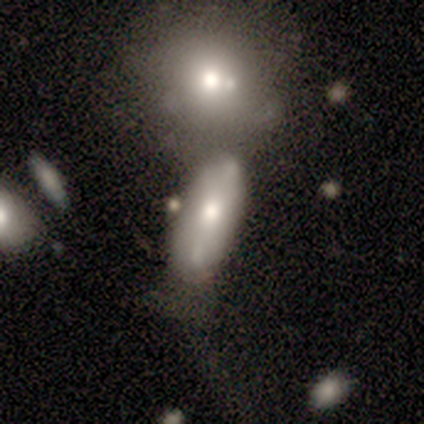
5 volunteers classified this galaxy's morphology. Volunteers were most divided on "merging": none: 60%, minor disturbance: 20%, merger: 20%, major disturbance: 0%. More confident: smooth or featured — smooth (100%); how rounded — in between (80%).